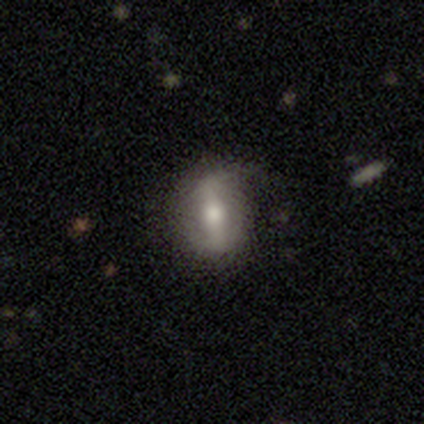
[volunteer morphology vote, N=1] Overall: smooth (100%). How rounded: in between (100%). Merging: none (100%).